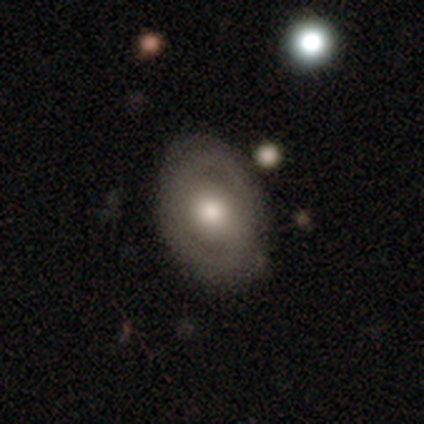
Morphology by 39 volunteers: A featured or disk galaxy (72%) with no bar (59%), no spiral arms (67%) and a moderate central bulge (70%). Merging: none (84%).